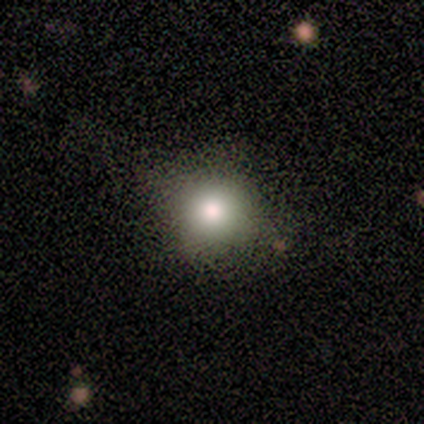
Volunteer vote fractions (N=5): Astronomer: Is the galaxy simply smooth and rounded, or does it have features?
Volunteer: smooth — 80%.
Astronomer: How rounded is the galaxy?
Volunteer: round — 100%.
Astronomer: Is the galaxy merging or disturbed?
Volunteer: none — 75%.